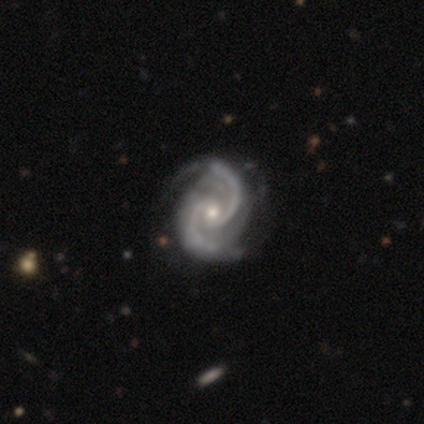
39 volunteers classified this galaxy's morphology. This is clearly a featured or disk galaxy (100%). It is clearly not viewed edge-on (97%). Bar: likely no (66%). Spiral arm pattern: clearly yes (97%). Spiral arm count: clearly 2 (89%). Spiral winding: likely medium (65%). Central bulge: possibly moderate (50%). Merging: possibly none (51%).